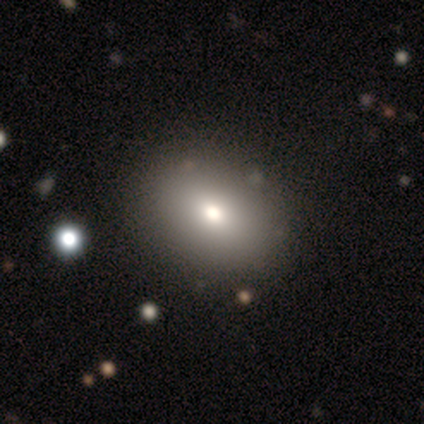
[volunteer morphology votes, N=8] Smooth or featured: smooth — 88% (featured or disk — 12%)
How rounded: in between — 100%
Merging: none — 88% (minor disturbance — 12%)